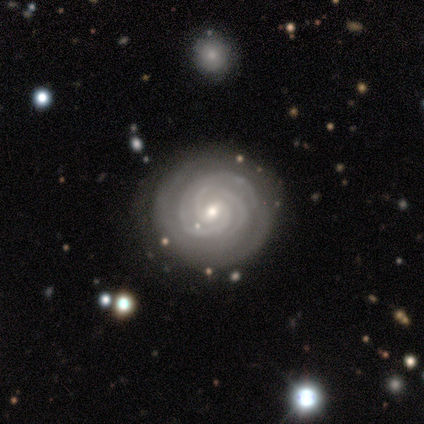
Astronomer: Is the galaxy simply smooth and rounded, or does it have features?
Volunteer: featured or disk — 100%.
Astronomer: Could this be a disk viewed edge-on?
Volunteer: no — 100%.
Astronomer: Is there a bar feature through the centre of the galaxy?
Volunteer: weak — 40%, tied with no at 40%.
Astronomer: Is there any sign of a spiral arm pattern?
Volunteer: yes — 100%.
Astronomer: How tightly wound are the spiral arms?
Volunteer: tight — 80%.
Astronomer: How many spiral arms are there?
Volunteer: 2 — 60% (runner-up: 3, 40%).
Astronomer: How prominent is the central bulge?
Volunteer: small — 60% (runner-up: moderate, 40%).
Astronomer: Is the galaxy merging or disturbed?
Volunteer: none — 80%.